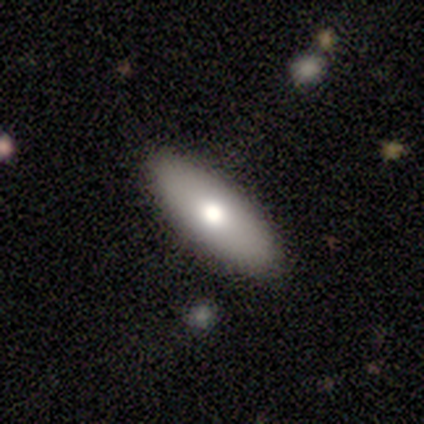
smooth-or-featured: smooth: 80% | star or artifact: 20% | featured or disk: 0%
  how-rounded: in between: 50% (tied) | cigar-shaped: 50% (tied) | round: 0%
  merging: none: 100% | minor disturbance: 0% | major disturbance: 0% | merger: 0%